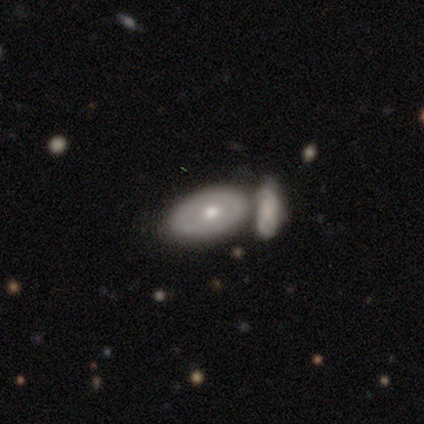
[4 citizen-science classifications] Smooth or featured: featured or disk — 75% (smooth — 25%)
Edge-on disk: no — 100%
Bar: no — 100%
Spiral arms: no — 67% (yes — 33%)
Bulge size: moderate — 100%
Merging: none — 50% (tied with merger — 50%)